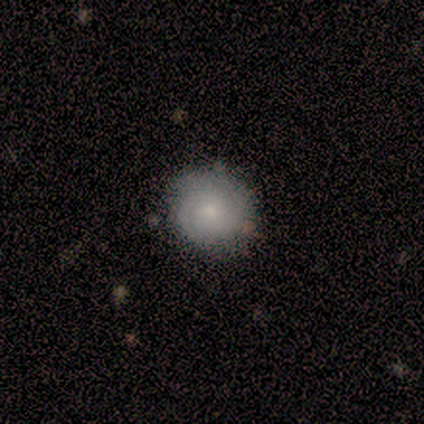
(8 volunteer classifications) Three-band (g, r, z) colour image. It shows a featured or disk galaxy (88%) with no bar (86%), tight (86%) spiral arms (100%) and a small central bulge (71%). Merging: none (88%).